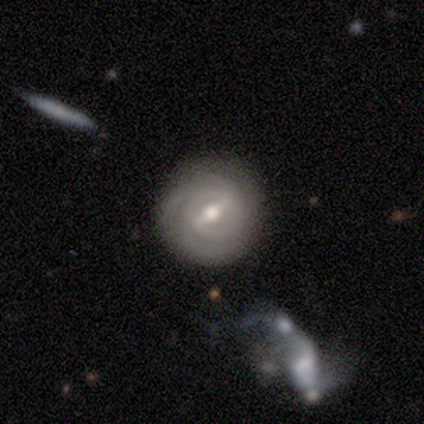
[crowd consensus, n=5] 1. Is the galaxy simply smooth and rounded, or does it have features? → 100% featured or disk, 0% smooth, 0% star or artifact.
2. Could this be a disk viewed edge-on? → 100% no, 0% yes.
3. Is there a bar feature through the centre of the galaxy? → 60% strong, 40% weak, 0% no.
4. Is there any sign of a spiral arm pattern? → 100% yes, 0% no.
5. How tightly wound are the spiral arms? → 100% tight, 0% medium, 0% loose.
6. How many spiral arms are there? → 40% 3 (tied), 40% can't tell (tied), 20% 4, 0% 1, 0% 2, 0% more than 4.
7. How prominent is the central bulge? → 80% moderate, 20% small, 0% dominant, 0% large, 0% none.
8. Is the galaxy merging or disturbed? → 100% none, 0% minor disturbance, 0% major disturbance, 0% merger.